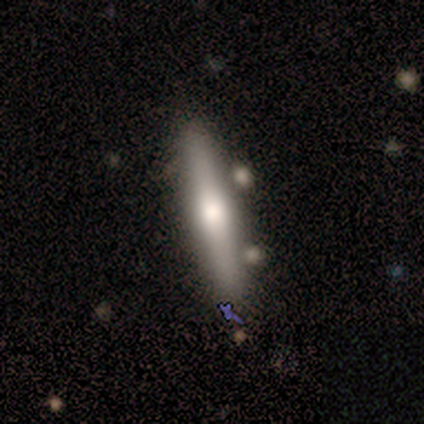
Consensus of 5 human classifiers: smooth_or_featured: smooth (p=0.60) [alt: featured or disk p=0.40]
how_rounded: cigar-shaped (p=1.00)
merging: none (p=0.80) [alt: minor disturbance p=0.20]